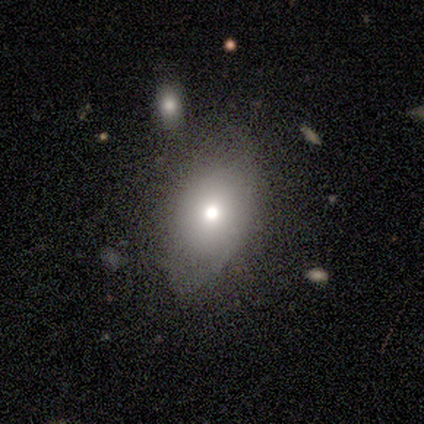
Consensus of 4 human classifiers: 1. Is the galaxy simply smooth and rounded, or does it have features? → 100% smooth, 0% featured or disk, 0% star or artifact.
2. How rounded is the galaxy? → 100% in between, 0% round, 0% cigar-shaped.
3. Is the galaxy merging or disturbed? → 75% minor disturbance, 25% major disturbance, 0% none, 0% merger.